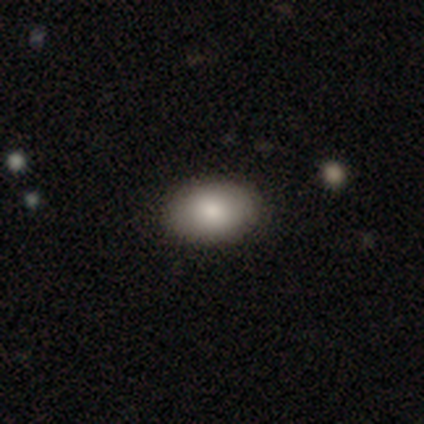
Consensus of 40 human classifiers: Smooth or featured? 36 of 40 (90%) said smooth. How rounded? 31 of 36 (86%) said in between. Merging? 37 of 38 (97%) said none.